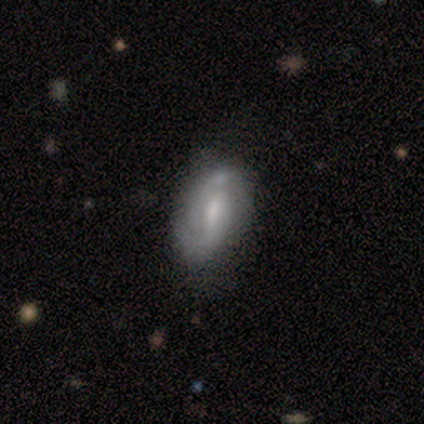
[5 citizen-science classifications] A featured or disk galaxy (80%) with a weak bar (67%), 2 (50%, tied with can't tell) tight (50%, tied with loose) spiral arms (67%) and a moderate central bulge (67%). Merging: minor disturbance (40%, tied with merger).